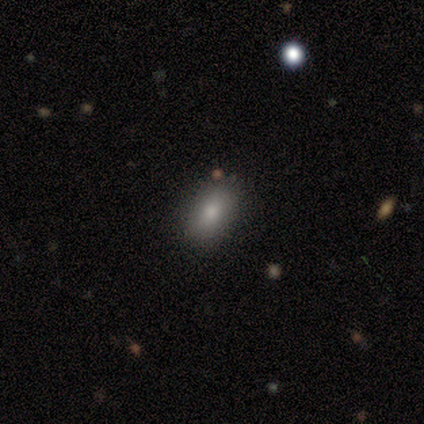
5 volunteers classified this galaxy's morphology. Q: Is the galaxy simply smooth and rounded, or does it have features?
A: smooth — 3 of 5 (60%).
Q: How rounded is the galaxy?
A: in between — 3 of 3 (100%).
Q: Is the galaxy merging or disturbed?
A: none — 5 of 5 (100%).